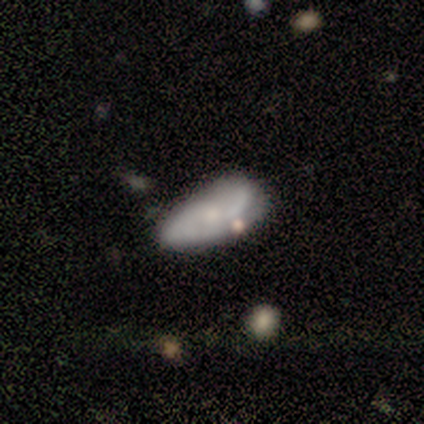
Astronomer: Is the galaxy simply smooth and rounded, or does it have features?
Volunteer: smooth — 53% (runner-up: featured or disk, 42%).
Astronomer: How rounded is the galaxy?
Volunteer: in between — 90%.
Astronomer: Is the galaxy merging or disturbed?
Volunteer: none — 47% (runner-up: minor disturbance, 25%).